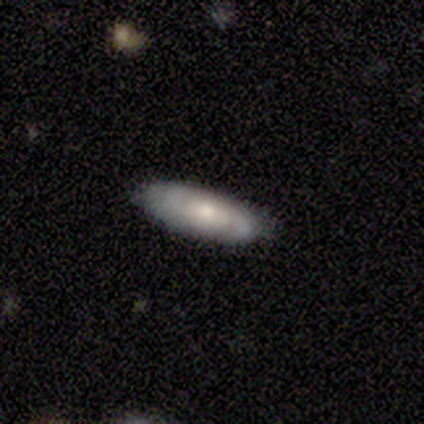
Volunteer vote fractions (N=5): smooth 80%, featured or disk 20%, star or artifact 0%. Down the decision tree: how rounded — in between (50%, tied with cigar-shaped); merging — none (100%).